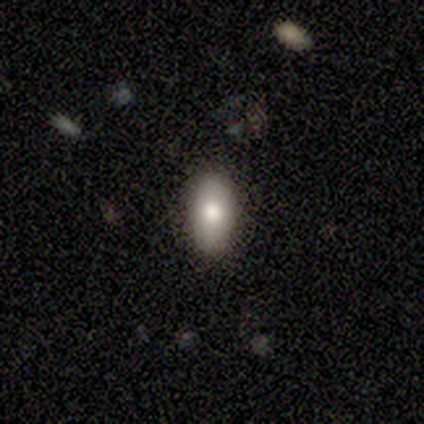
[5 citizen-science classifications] A smooth galaxy with no disk features (100%) that is in between round and cigar-shaped (100%).

Vote fractions:
- Smooth or featured? smooth: 100% / featured or disk: 0% / star or artifact: 0%
- How rounded? in between: 100% / round: 0% / cigar-shaped: 0%
- Merging? none: 100% / minor disturbance: 0% / major disturbance: 0% / merger: 0%